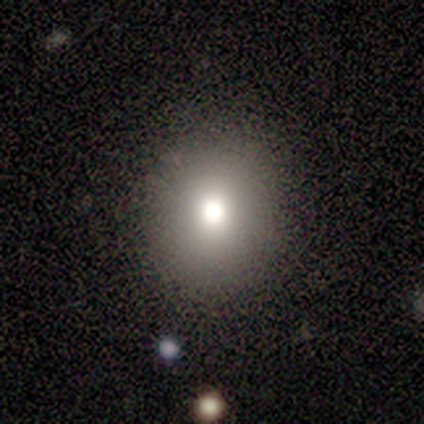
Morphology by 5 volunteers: Volunteers were most divided on "how rounded": round: 75%, in between: 25%, cigar-shaped: 0%. More confident: smooth or featured — smooth (80%); merging — none (75%).